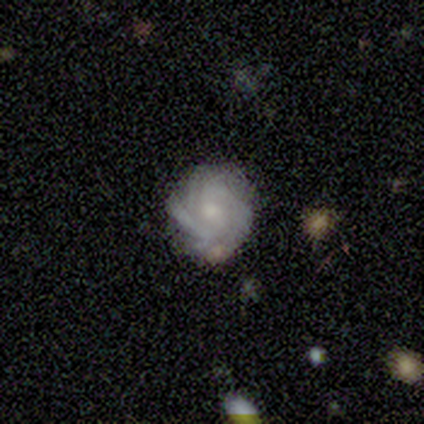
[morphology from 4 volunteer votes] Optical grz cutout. It shows a featured or disk galaxy (100%) with a weak bar (50%, tied with no), 2 (25%, tied with 3, 4 and can't tell) tight (75%) spiral arms (100%) and a moderate central bulge (50%, tied with small). Merging: none (100%).